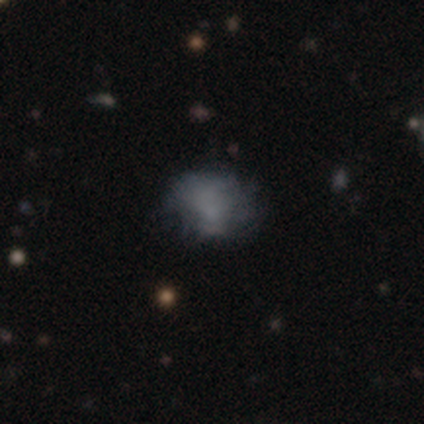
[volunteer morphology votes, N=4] Smooth or featured?
  - smooth: 75% *
  - star or artifact: 25%
  - featured or disk: 0%
How rounded?
  - in between: 67% *
  - round: 33%
  - cigar-shaped: 0%
Merging?
  - none: 100% *
  - minor disturbance: 0%
  - major disturbance: 0%
  - merger: 0%